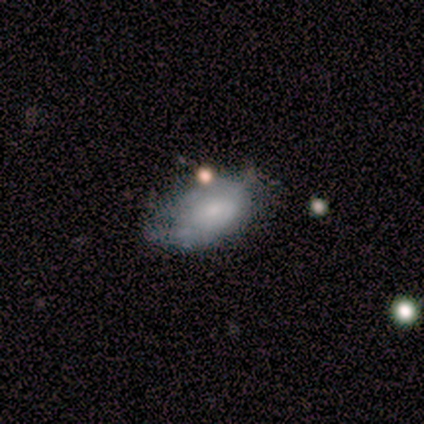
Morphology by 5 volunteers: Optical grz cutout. It shows a smooth galaxy with no disk features (80%) that is in between round and cigar-shaped (100%). Merging: minor disturbance (40%, tied with major disturbance).